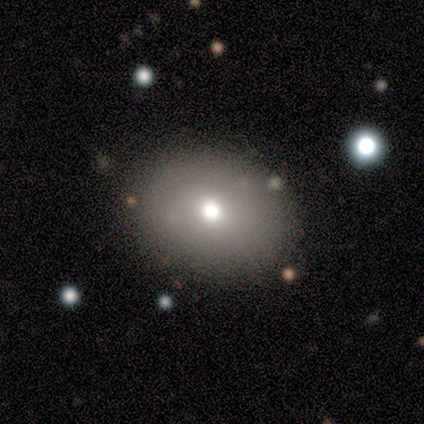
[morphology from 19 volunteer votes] type=smooth (58%); roundness=round (55%); merging=none (93%).